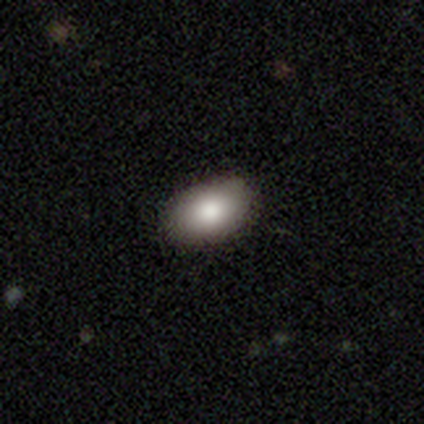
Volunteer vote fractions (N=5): A smooth galaxy with no disk features (100%) that is in between round and cigar-shaped (80%). Merging: none (100%).